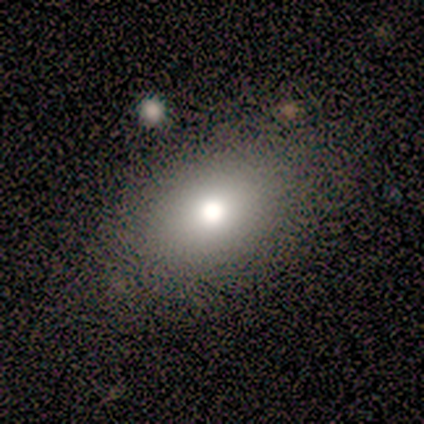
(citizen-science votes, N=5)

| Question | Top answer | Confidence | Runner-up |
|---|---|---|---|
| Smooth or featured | smooth | 80% | star or artifact (20%) |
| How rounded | in between | 75% | round (25%) |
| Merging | none | 100% | — |